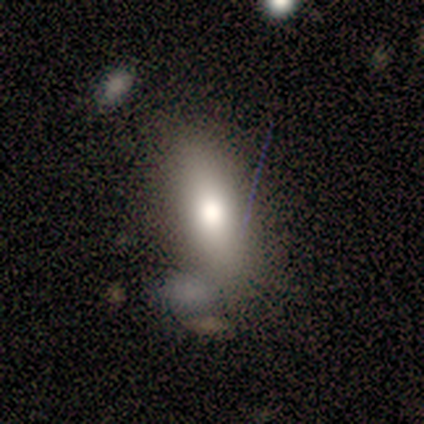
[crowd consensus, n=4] A smooth galaxy with no disk features (50%, tied with featured or disk) that is in between round and cigar-shaped (50%, tied with cigar-shaped).

Vote fractions:
- Smooth or featured? smooth: 50% (tied) / featured or disk: 50% (tied) / star or artifact: 0%
- How rounded? in between: 50% (tied) / cigar-shaped: 50% (tied) / round: 0%
- Merging? minor disturbance: 50% / none: 25% / merger: 25% / major disturbance: 0%